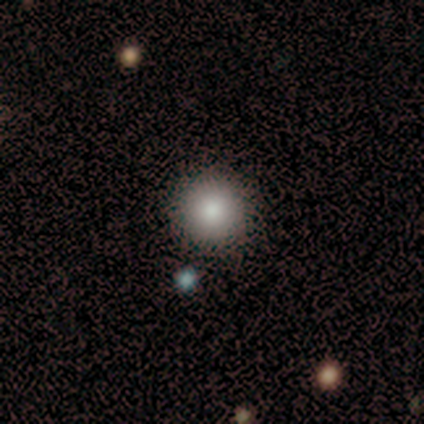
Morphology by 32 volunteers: type=smooth (81%); roundness=round (96%); merging=none (96%).